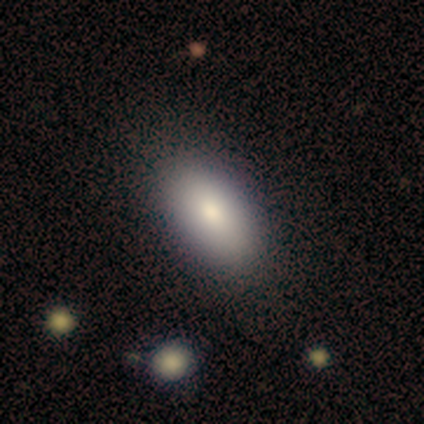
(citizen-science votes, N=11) smooth-or-featured: smooth: 64% | featured or disk: 27% | star or artifact: 9%
  how-rounded: in between: 86% | round: 14% | cigar-shaped: 0%
  merging: none: 100% | minor disturbance: 0% | major disturbance: 0% | merger: 0%